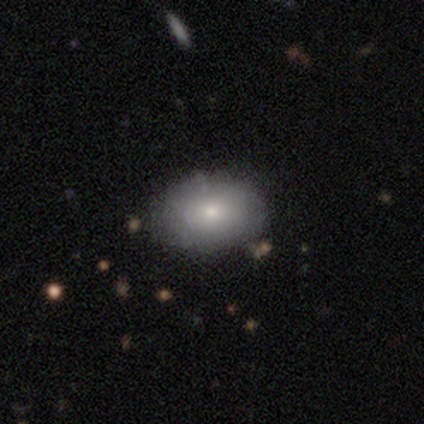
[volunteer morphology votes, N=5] Q: Smooth or featured?
A: smooth (100%)
Q: How rounded?
A: in between (80%); runner-up: round (20%)
Q: Merging?
A: none (80%); runner-up: minor disturbance (20%)